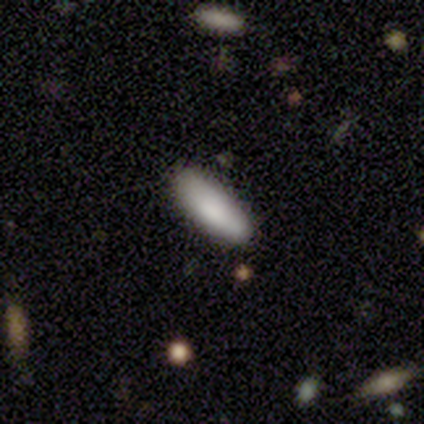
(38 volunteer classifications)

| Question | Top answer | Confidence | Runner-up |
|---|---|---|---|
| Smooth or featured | smooth | 87% | star or artifact (8%) |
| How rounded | in between | 76% | cigar-shaped (24%) |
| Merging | none | 80% | minor disturbance (17%) |